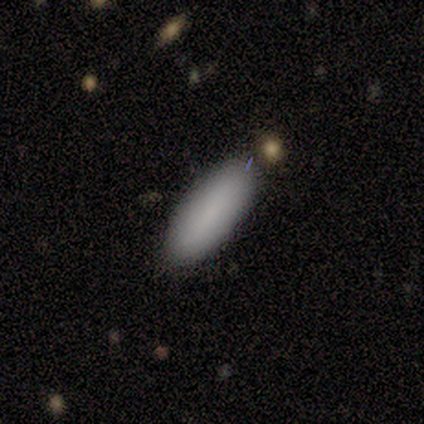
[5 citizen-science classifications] smooth-or-featured: smooth: 80% | featured or disk: 20% | star or artifact: 0%
  how-rounded: in between: 50% (tied) | cigar-shaped: 50% (tied) | round: 0%
  merging: none: 100% | minor disturbance: 0% | major disturbance: 0% | merger: 0%